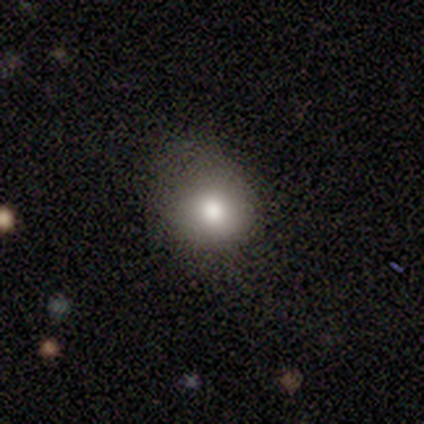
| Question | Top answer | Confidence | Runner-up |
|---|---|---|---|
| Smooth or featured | smooth | 70% | featured or disk (20%) |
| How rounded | round | 86% | in between (14%) |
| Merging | none | 56% | minor disturbance (33%) |